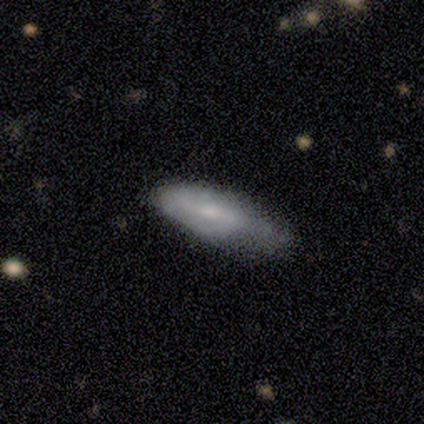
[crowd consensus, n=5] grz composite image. It shows a smooth galaxy with no disk features (100%) that is in between round and cigar-shaped (60%). Merging: minor disturbance (60%).